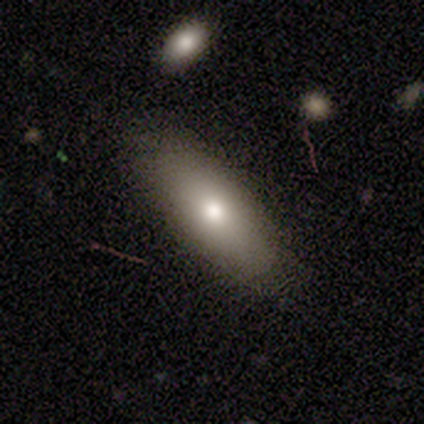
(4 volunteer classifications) A smooth galaxy with no disk features (100%) that is in between round and cigar-shaped (75%). Merging: none (75%).